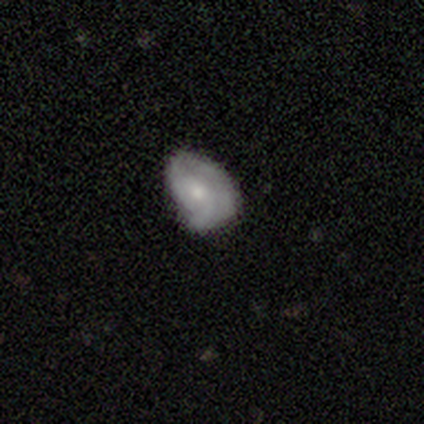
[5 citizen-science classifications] Smooth or featured: featured or disk — 60% (star or artifact — 40%)
Edge-on disk: no — 100%
Bar: no — 100%
Spiral arms: yes — 100%
Spiral winding: tight — 67% (medium — 33%)
Spiral arm count: 1 — 33% (tied with 2 — 33%; can't tell — 33%)
Bulge size: moderate — 67% (small — 33%)
Merging: minor disturbance — 100%